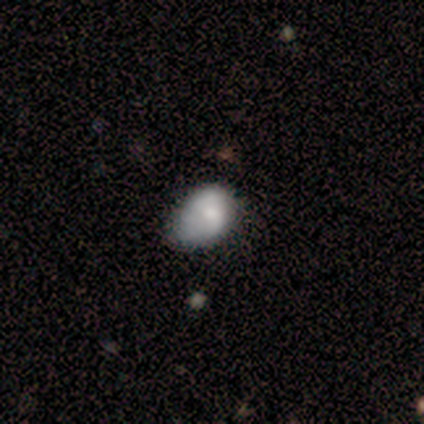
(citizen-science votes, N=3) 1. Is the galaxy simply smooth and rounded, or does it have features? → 67% featured or disk, 33% star or artifact, 0% smooth.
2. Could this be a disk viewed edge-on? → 100% no, 0% yes.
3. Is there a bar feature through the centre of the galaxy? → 50% weak (tied), 50% no (tied), 0% strong.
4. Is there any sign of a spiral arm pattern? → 50% yes (tied), 50% no (tied).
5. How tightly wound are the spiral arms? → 100% loose, 0% tight, 0% medium.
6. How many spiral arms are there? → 100% can't tell, 0% 1, 0% 2, 0% 3, 0% 4, 0% more than 4.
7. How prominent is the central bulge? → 50% moderate (tied), 50% small (tied), 0% dominant, 0% large, 0% none.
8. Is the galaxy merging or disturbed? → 50% none (tied), 50% minor disturbance (tied), 0% major disturbance, 0% merger.